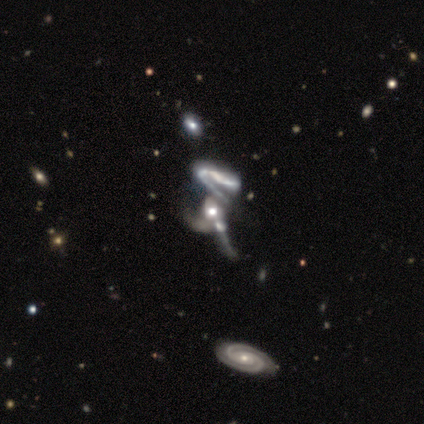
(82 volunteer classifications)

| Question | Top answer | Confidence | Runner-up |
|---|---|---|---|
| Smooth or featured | featured or disk | 78% | star or artifact (16%) |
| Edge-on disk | no | 94% | yes (6%) |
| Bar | no | 83% | strong (10%) |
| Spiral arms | yes | 65% | no (35%) |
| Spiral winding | loose | 62% | medium (28%) |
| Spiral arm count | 1 | 36% | 2 (33%) |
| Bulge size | moderate | 47% | large (25%) |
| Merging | merger | 81% | major disturbance (13%) |